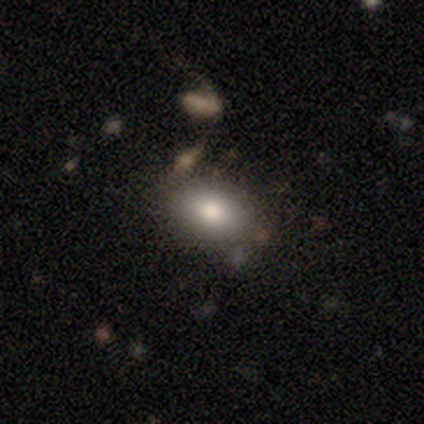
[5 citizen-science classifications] Q: Smooth or featured?
A: smooth (60%); runner-up: star or artifact (40%)
Q: How rounded?
A: in between (100%)
Q: Merging?
A: none (100%)